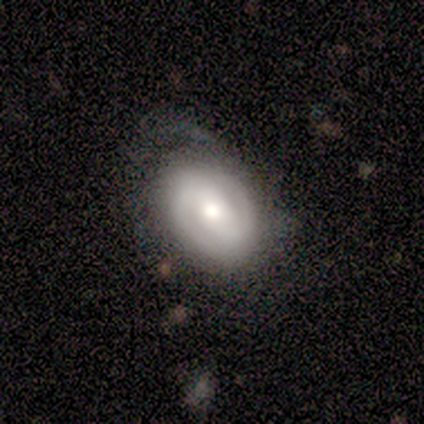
featured or disk 80%, smooth 20%, star or artifact 0%. Down the decision tree: edge-on disk — no (100%); bar — weak (50%); spiral arms — yes (75%); spiral arm count — 2 (67%); spiral winding — medium (67%); bulge size — moderate (50%); merging — none (40%, tied with major disturbance).